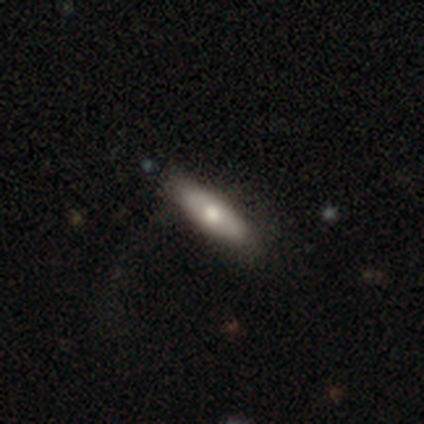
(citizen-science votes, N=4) This is possibly a smooth galaxy (50%). How rounded: clearly in between (100%). Merging: clearly none (100%).